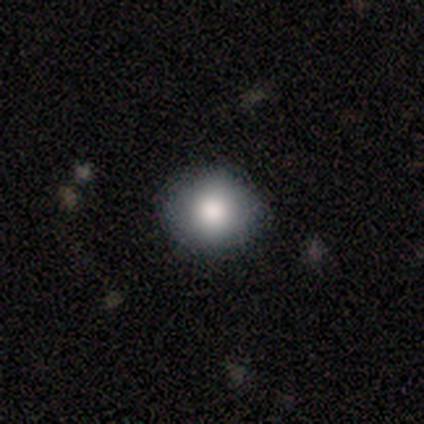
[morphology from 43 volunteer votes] A smooth galaxy with no disk features (84%) that is round (72%). Merging: none (90%).